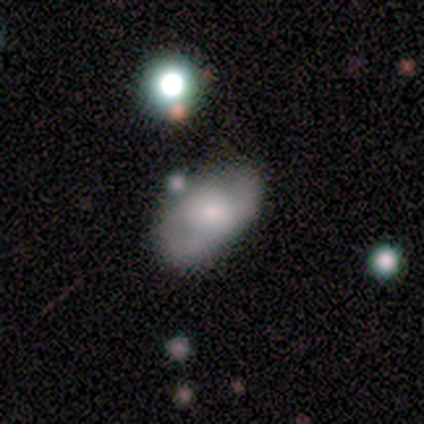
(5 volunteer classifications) Morphology: type=smooth (60%); roundness=in between (67%); merging=minor disturbance (50%).